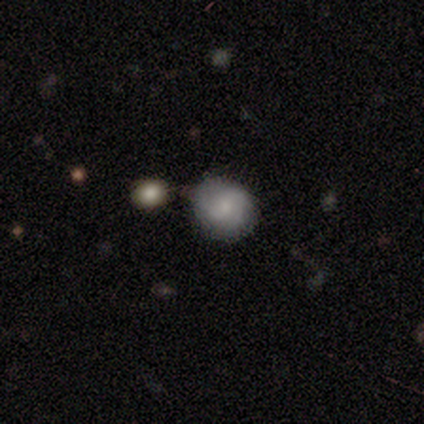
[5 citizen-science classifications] smooth-or-featured: smooth: 60% | featured or disk: 40% | star or artifact: 0%
  how-rounded: round: 100% | in between: 0% | cigar-shaped: 0%
  merging: none: 80% | minor disturbance: 20% | major disturbance: 0% | merger: 0%